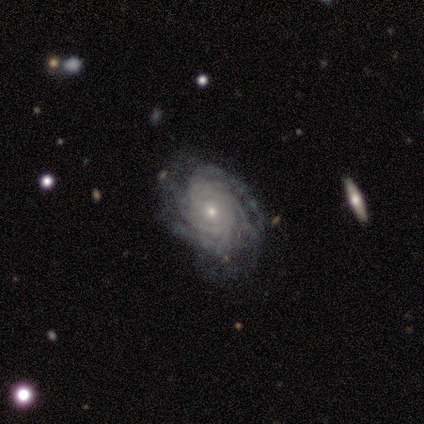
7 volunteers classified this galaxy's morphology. Q: Smooth or featured?
A: featured or disk (100%)
Q: Edge-on disk?
A: no (100%)
Q: Bar?
A: no (86%); runner-up: weak (14%)
Q: Spiral arms?
A: yes (100%)
Q: Spiral winding?
A: tight (71%); runner-up: medium (29%)
Q: Spiral arm count?
A: can't tell (71%); runner-up: more than 4 (29%)
Q: Bulge size?
A: small (100%)
Q: Merging?
A: none (71%); runner-up: minor disturbance (29%)